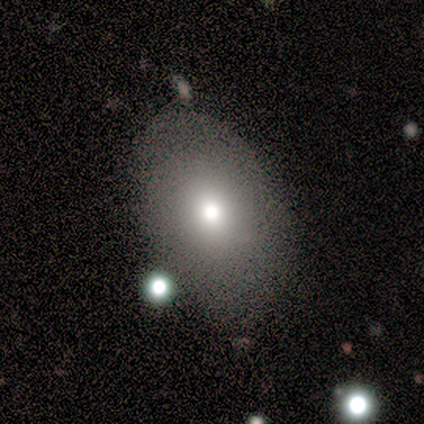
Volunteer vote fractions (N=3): Morphology: type=smooth (67%); roundness=in between (100%); merging=none (67%).